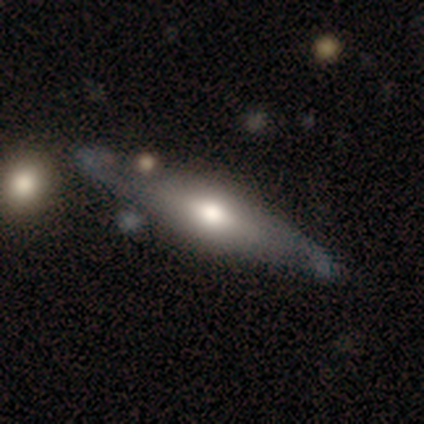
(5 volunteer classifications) smooth-or-featured: featured or disk: 80% | smooth: 20% | star or artifact: 0%
  disk-edge-on: yes: 100% | no: 0%
    edge-on-bulge: rounded: 100% | boxy: 0% | none: 0%
  merging: none: 40% | minor disturbance: 20% | major disturbance: 20% | merger: 20%